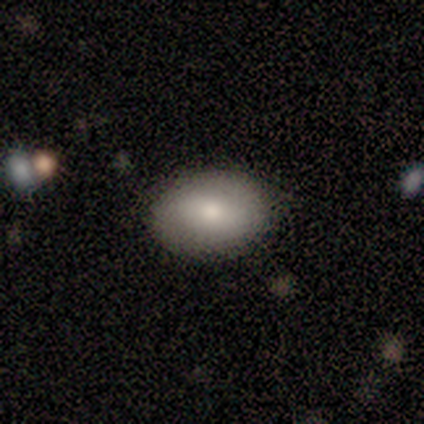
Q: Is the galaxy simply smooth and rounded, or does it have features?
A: smooth — 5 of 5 (100%).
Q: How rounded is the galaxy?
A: in between — 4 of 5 (80%).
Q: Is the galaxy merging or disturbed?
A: none — 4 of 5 (80%).